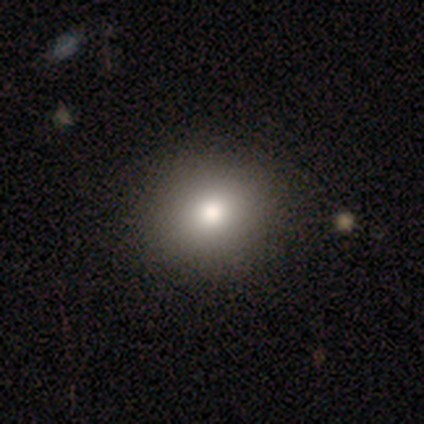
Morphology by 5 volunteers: type=smooth (80%); roundness=round (100%); merging=none (75%).